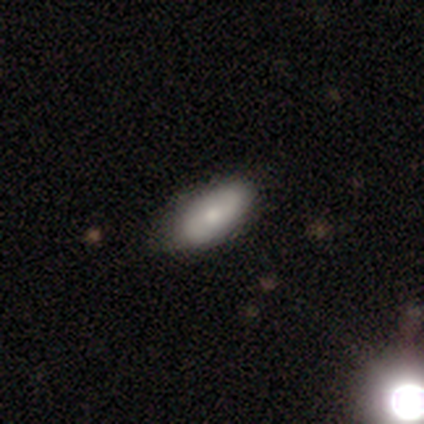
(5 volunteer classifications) Volunteers were most divided on "spiral winding" (2-way tie): tight: 50%, loose: 50%, medium: 0%. More confident: edge-on disk — no (100%); bar — no (100%); spiral arm count — 2 (100%); bulge size — moderate (100%); merging — none (80%); spiral arms — yes (67%); smooth or featured — featured or disk (60%).